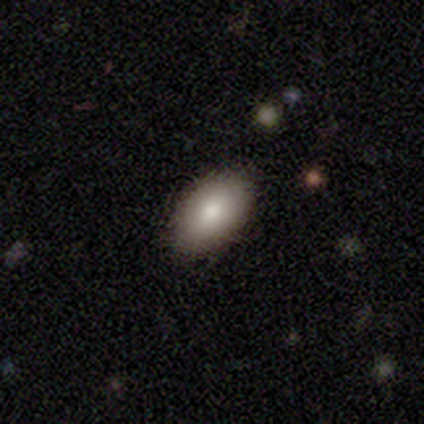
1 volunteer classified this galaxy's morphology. smooth 100%, featured or disk 0%, star or artifact 0%. Down the decision tree: how rounded — in between (100%); merging — none (100%).